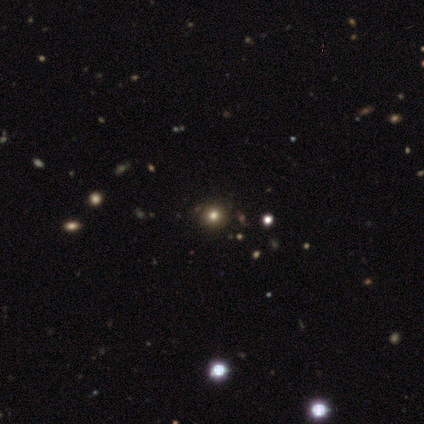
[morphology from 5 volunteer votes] This appears to be a smooth galaxy with no disk features (80%) that is round (75%). Merging: none (40%, tied with minor disturbance).